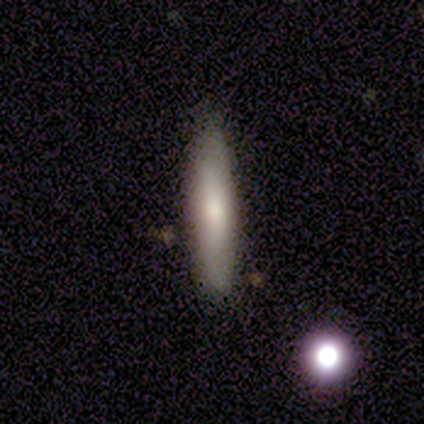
Morphology: type=smooth (80%); roundness=cigar-shaped (75%); merging=none (60%).